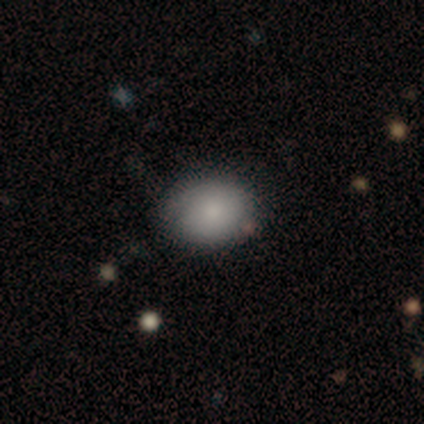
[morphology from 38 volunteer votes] type=smooth (79%); roundness=in between (63%); merging=none (77%).